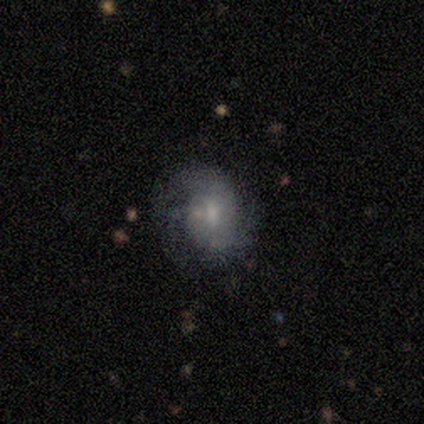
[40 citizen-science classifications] A featured or disk galaxy (70%) with no bar (68%), tight (46%) spiral arms (93%) and a small central bulge (54%). Merging: none (50%).